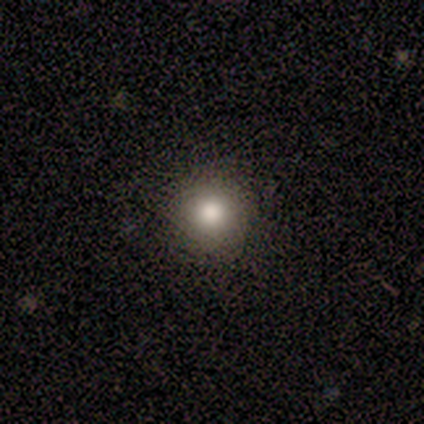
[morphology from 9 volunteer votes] A smooth galaxy with no disk features (78%) that is round (100%).

Vote fractions:
- Smooth or featured? smooth: 78% / featured or disk: 22% / star or artifact: 0%
- How rounded? round: 100% / in between: 0% / cigar-shaped: 0%
- Merging? none: 67% / minor disturbance: 22% / major disturbance: 11% / merger: 0%